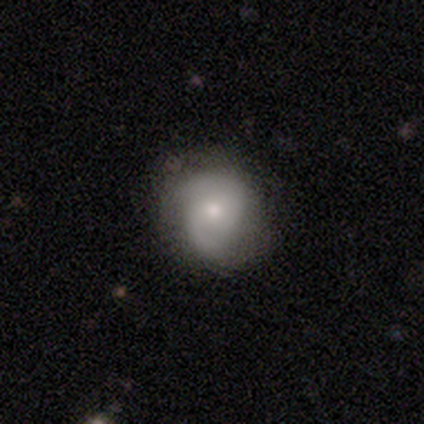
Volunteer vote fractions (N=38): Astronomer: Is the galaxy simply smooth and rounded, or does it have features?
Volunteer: featured or disk — 66%.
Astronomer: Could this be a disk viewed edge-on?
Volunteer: no — 100%.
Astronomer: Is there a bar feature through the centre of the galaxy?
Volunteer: no — 76%.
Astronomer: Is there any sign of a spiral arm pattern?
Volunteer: yes — 88%.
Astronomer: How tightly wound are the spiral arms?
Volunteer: medium — 55%.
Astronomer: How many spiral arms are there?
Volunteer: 2 — 86%.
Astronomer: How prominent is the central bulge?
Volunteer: moderate — 64%.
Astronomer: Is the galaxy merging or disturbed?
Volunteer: none — 40% (runner-up: minor disturbance, 23%).